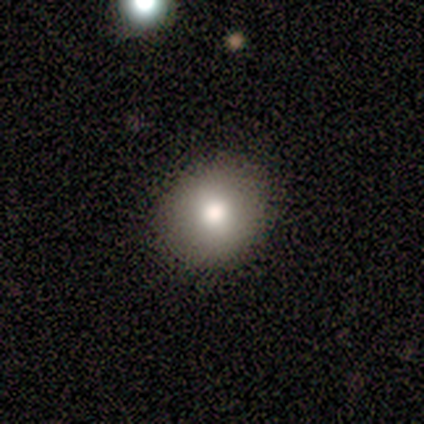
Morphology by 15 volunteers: A smooth galaxy with no disk features (87%) that is round (85%). Merging: none (93%).